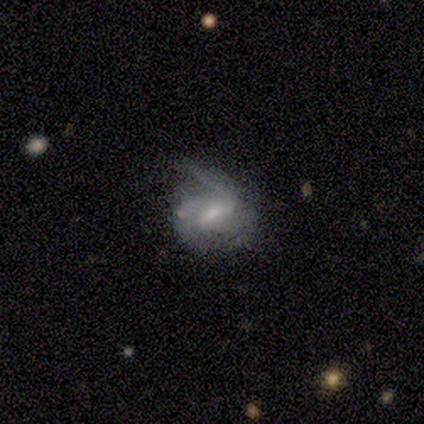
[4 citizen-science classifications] featured or disk 100%, smooth 0%, star or artifact 0%. Down the decision tree: edge-on disk — no (100%); bar — strong (50%); spiral arms — yes (75%); spiral arm count — 1 (33%, tied with 2 and 3); spiral winding — medium (100%); bulge size — moderate (50%); merging — minor disturbance (50%).